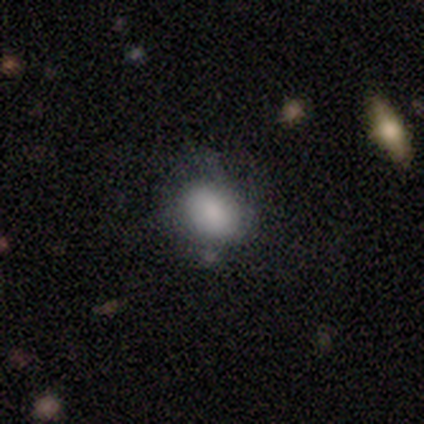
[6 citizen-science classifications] Q: Smooth or featured?
A: smooth (67%); runner-up: featured or disk (17%)
Q: How rounded?
A: in between (100%)
Q: Merging?
A: none (60%); runner-up: minor disturbance (20%)